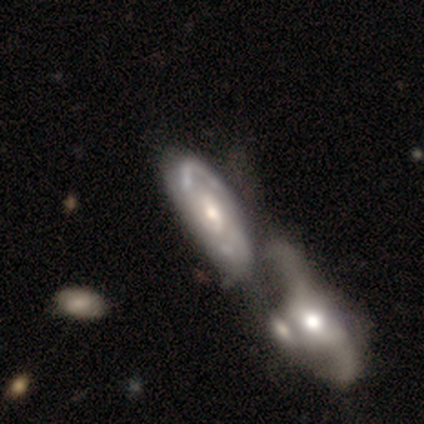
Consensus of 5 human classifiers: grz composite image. It shows a featured or disk galaxy (80%) with no bar (100%), 2 (50%, tied with can't tell) tight (100%) spiral arms (50%, tied with no) and a small central bulge (50%). Merging: none (25%, tied with minor disturbance, major disturbance and merger).